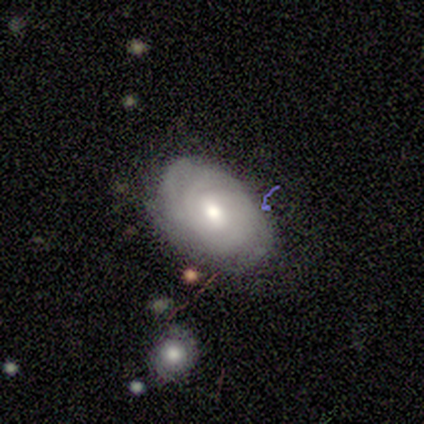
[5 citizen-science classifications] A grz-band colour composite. It shows a featured or disk galaxy (80%) with no bar (50%), tight (100%) spiral arms (100%) and a moderate central bulge (75%). Merging: none (80%).